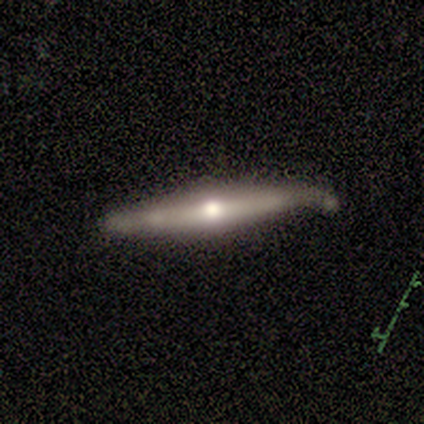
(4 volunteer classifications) Volunteers were most divided on "merging": none: 75%, minor disturbance: 25%, major disturbance: 0%, merger: 0%. More confident: smooth or featured — featured or disk (100%); edge-on disk — yes (100%); edge-on bulge — rounded (100%).